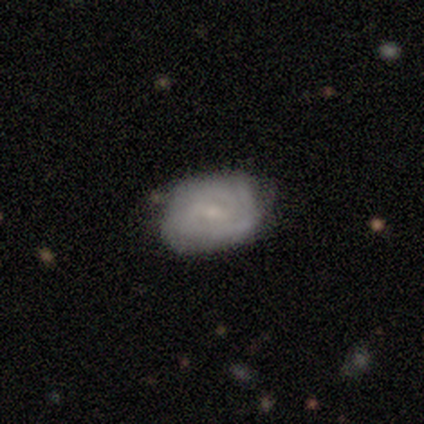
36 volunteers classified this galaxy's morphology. A featured or disk galaxy (58%) with no bar (48%), tight (88%) spiral arms (81%) and a small central bulge (76%). Merging: none (73%).